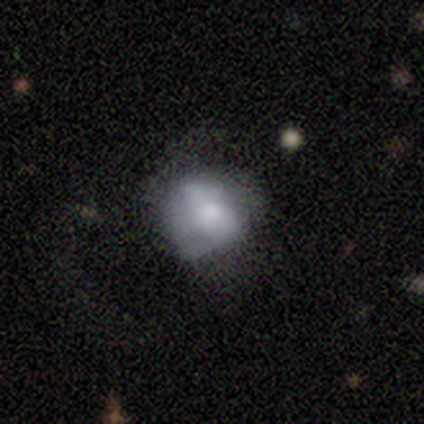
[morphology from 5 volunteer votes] Smooth or featured? 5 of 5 (100%) said smooth. How rounded? 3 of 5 (60%) said in between. Merging? 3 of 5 (60%) said none.